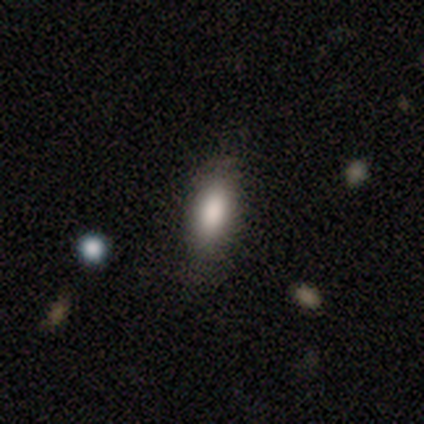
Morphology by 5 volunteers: This is clearly a smooth galaxy (100%). How rounded: clearly in between (100%). Merging: clearly none (100%).